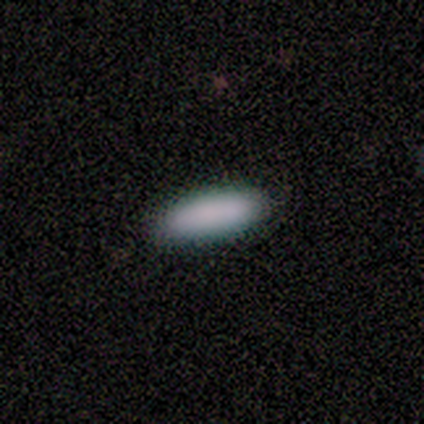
Smooth or featured: smooth — 100%
How rounded: in between — 60% (cigar-shaped — 40%)
Merging: none — 100%